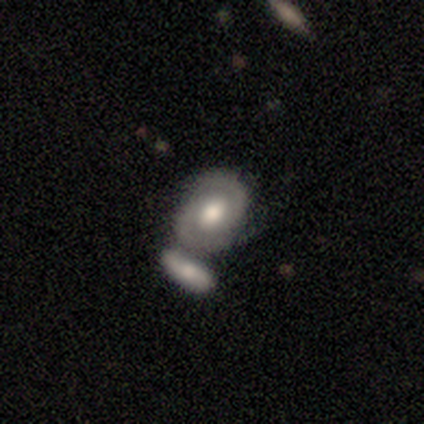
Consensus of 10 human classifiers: Smooth or featured?
  - featured or disk: 70% *
  - smooth: 30%
  - star or artifact: 0%
Edge-on disk?
  - no: 100% *
  - yes: 0%
Bar?
  - no: 71% *
  - weak: 29%
  - strong: 0%
Spiral arms?
  - yes: 100% *
  - no: 0%
Spiral winding?
  - medium: 57% *
  - tight: 43%
  - loose: 0%
Spiral arm count?
  - 2: 100% *
  - 1: 0%
  - 3: 0%
  - 4: 0%
  - more than 4: 0%
  - can't tell: 0%
Bulge size?
  - moderate: 71% *
  - large: 29%
  - dominant: 0%
  - small: 0%
  - none: 0%
Merging?
  - none: 40% * (tied)
  - merger: 40% * (tied)
  - minor disturbance: 20%
  - major disturbance: 0%